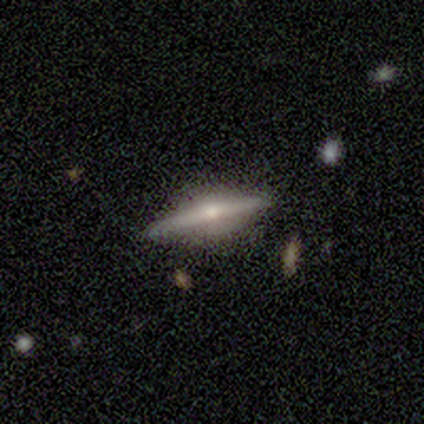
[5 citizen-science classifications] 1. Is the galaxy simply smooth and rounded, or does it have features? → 100% featured or disk, 0% smooth, 0% star or artifact.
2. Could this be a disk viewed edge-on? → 80% yes, 20% no.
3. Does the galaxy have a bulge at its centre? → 75% rounded, 25% none, 0% boxy.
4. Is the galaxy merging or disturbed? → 100% none, 0% minor disturbance, 0% major disturbance, 0% merger.